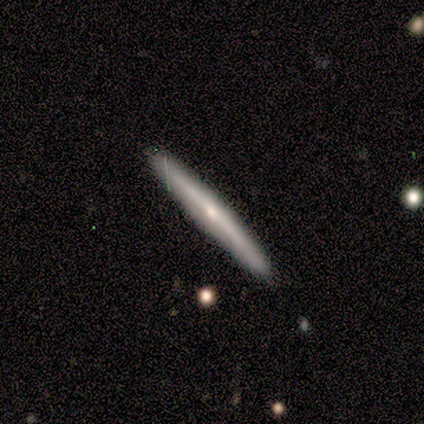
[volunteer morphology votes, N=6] smooth_or_featured: smooth (p=1.00)
how_rounded: cigar-shaped (p=1.00)
merging: none (p=0.83) [alt: minor disturbance p=0.17]